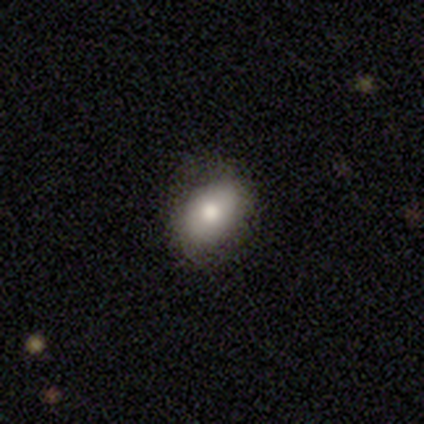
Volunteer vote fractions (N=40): smooth-or-featured: smooth: 78% | featured or disk: 18% | star or artifact: 5%
  how-rounded: in between: 84% | round: 16% | cigar-shaped: 0%
  merging: none: 79% | minor disturbance: 18% | major disturbance: 3% | merger: 0%